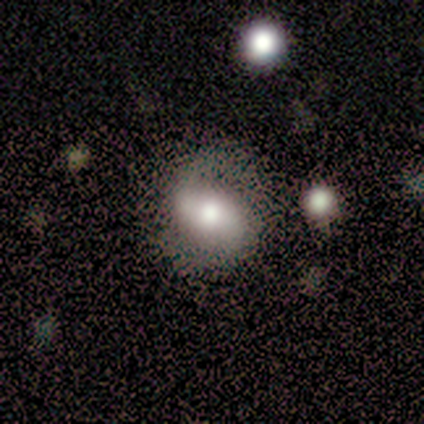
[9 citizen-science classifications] A featured or disk galaxy (56%) with a strong bar (60%), 2 (75%) medium (50%, tied with loose) spiral arms (80%) and a moderate central bulge (60%). Merging: none (78%).